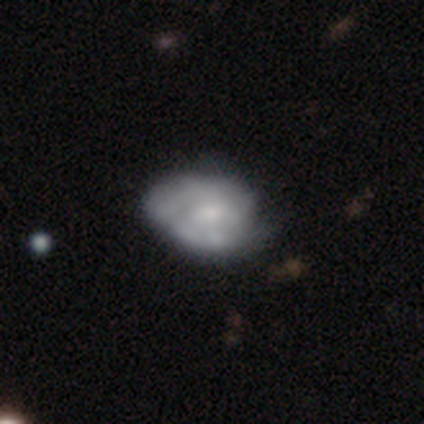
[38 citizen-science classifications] This appears to be a featured or disk galaxy (71%) with no bar (81%), tight (50%) spiral arms (69%) and a small central bulge (54%). Merging: none (32%).